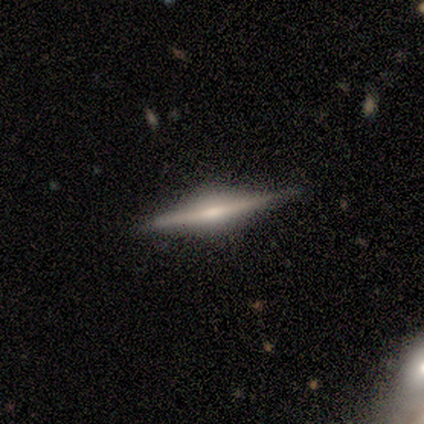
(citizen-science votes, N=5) smooth-or-featured: featured or disk: 60% | smooth: 40% | star or artifact: 0%
  disk-edge-on: yes: 100% | no: 0%
    edge-on-bulge: rounded: 67% | boxy: 33% | none: 0%
  merging: none: 60% | major disturbance: 20% | merger: 20% | minor disturbance: 0%